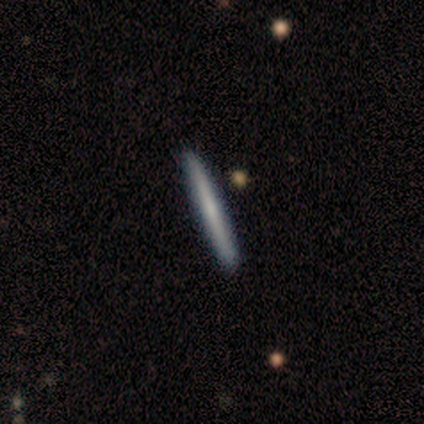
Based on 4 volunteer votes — Q: Smooth or featured?
A: smooth (75%); runner-up: featured or disk (25%)
Q: How rounded?
A: cigar-shaped (100%)
Q: Merging?
A: none (100%)